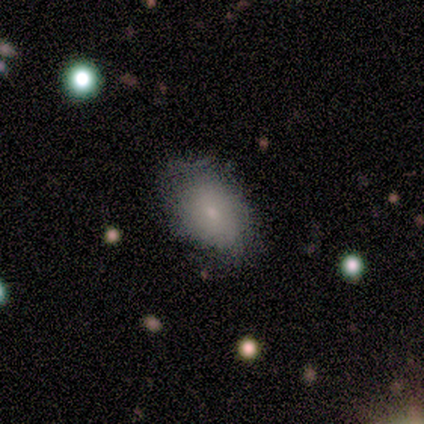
Morphology: type=smooth (100%); roundness=in between (100%); merging=none (40%, tied with minor disturbance).